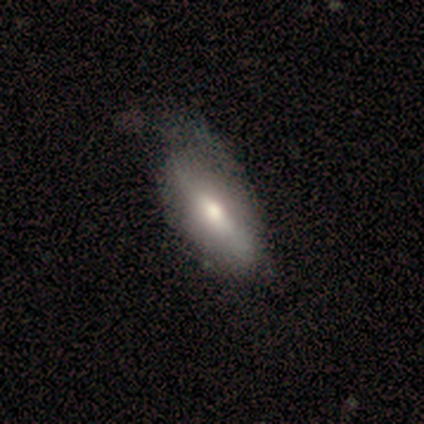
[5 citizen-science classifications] Smooth or featured?
  - featured or disk: 60% *
  - smooth: 40%
  - star or artifact: 0%
Edge-on disk?
  - no: 67% *
  - yes: 33%
Bar?
  - weak: 50% * (tied)
  - no: 50% * (tied)
  - strong: 0%
Spiral arms?
  - no: 100% *
  - yes: 0%
Bulge size?
  - moderate: 50% * (tied)
  - small: 50% * (tied)
  - dominant: 0%
  - large: 0%
  - none: 0%
Merging?
  - minor disturbance: 60% *
  - major disturbance: 40%
  - none: 0%
  - merger: 0%